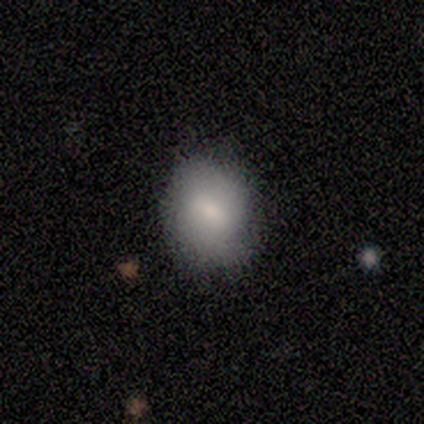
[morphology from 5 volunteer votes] smooth-or-featured: smooth: 80% | featured or disk: 20% | star or artifact: 0%
  how-rounded: round: 75% | in between: 25% | cigar-shaped: 0%
  merging: none: 100% | minor disturbance: 0% | major disturbance: 0% | merger: 0%